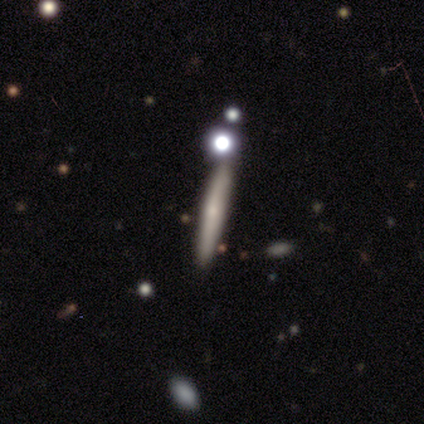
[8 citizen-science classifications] Overall: smooth (62%; featured or disk 38%). How rounded: cigar-shaped (100%). Merging: none (88%).